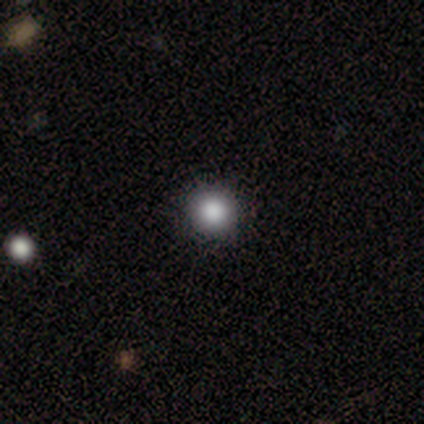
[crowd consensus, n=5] This appears to be a smooth galaxy with no disk features (80%) that is round (100%). Merging: none (100%).